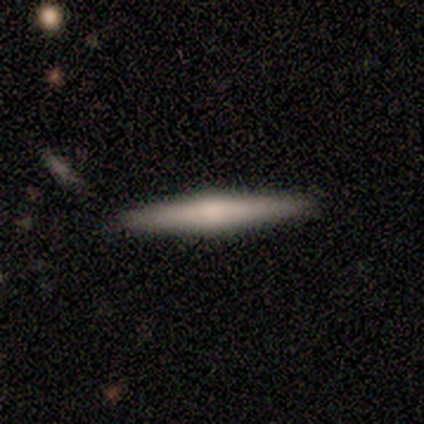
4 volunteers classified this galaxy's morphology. Volunteers were most divided on "smooth or featured": featured or disk: 50%, smooth: 25%, star or artifact: 25%. More confident: edge-on disk — yes (100%); edge-on bulge — rounded (100%); merging — none (100%).